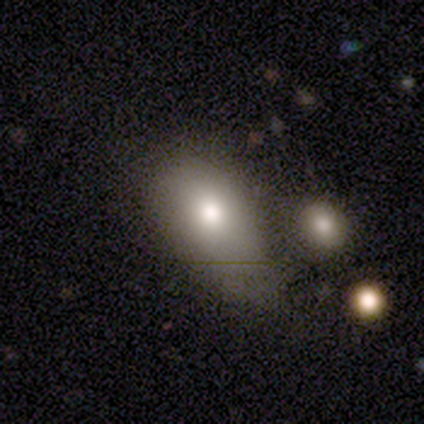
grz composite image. It shows a smooth galaxy with no disk features (80%) that is in between round and cigar-shaped (75%). Merging: minor disturbance (75%).